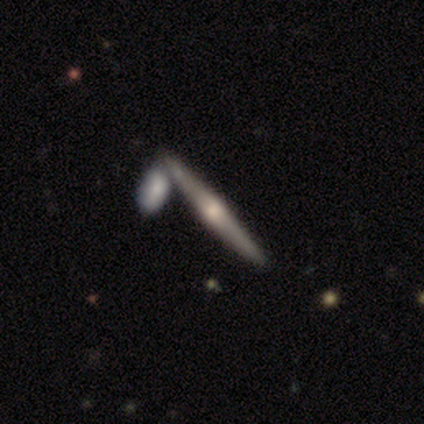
This is clearly a featured or disk galaxy (84%). It is clearly viewed edge-on (98%). Edge-on bulge: clearly rounded (83%). Merging: likely none (60%).